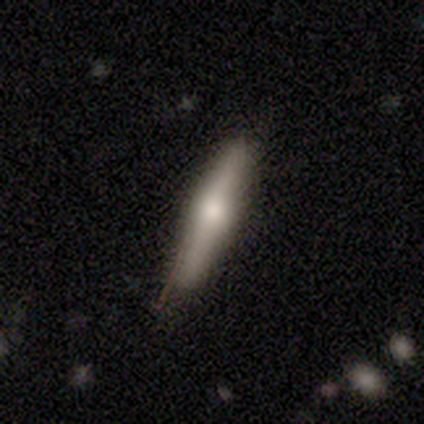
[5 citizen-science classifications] This appears to be a smooth galaxy with no disk features (80%) that is cigar-shaped (100%). Merging: none (100%).